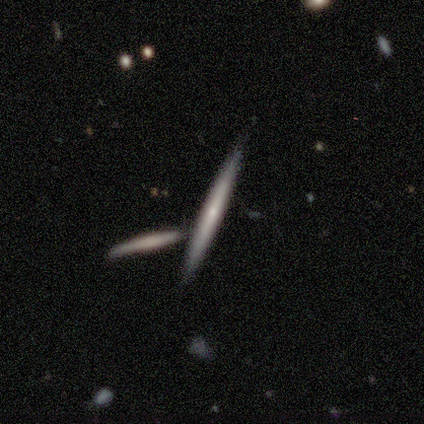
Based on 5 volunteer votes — featured or disk 60%, smooth 40%, star or artifact 0%. Down the decision tree: edge-on disk — yes (100%); edge-on bulge — none (67%); merging — none (80%).